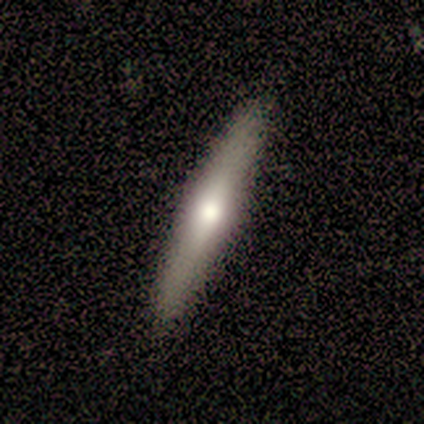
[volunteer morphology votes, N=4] This appears to be a smooth galaxy with no disk features (50%) that is cigar-shaped (100%). Merging: none (100%).